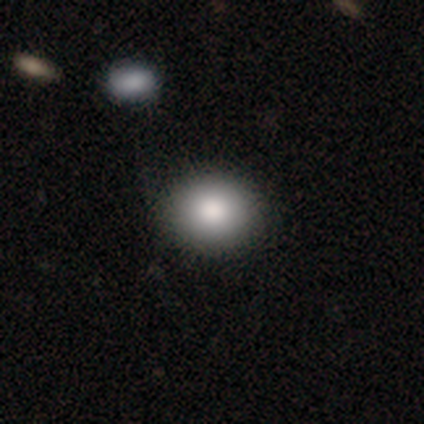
Smooth or featured: smooth — 60% (star or artifact — 40%)
How rounded: round — 100%
Merging: none — 67% (merger — 33%)